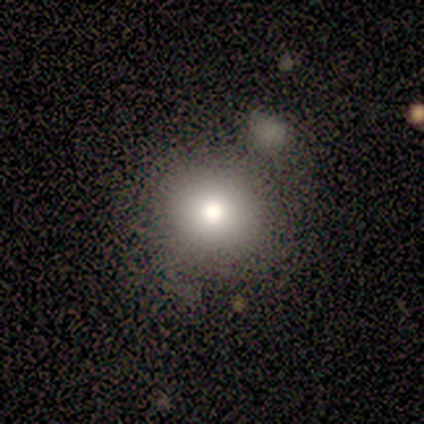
This is likely a smooth galaxy (75%). How rounded: clearly round (100%). Merging: likely none (67%).